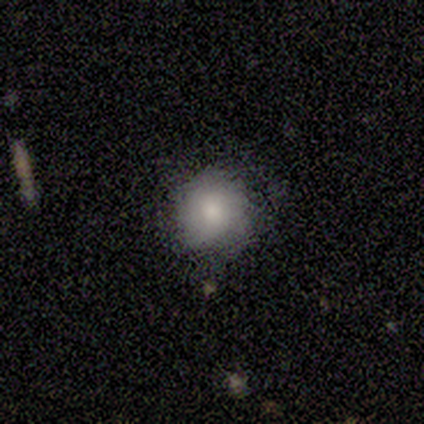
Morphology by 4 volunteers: Smooth or featured?
  - smooth: 100% *
  - featured or disk: 0%
  - star or artifact: 0%
How rounded?
  - round: 100% *
  - in between: 0%
  - cigar-shaped: 0%
Merging?
  - none: 50% * (tied)
  - major disturbance: 50% * (tied)
  - minor disturbance: 0%
  - merger: 0%